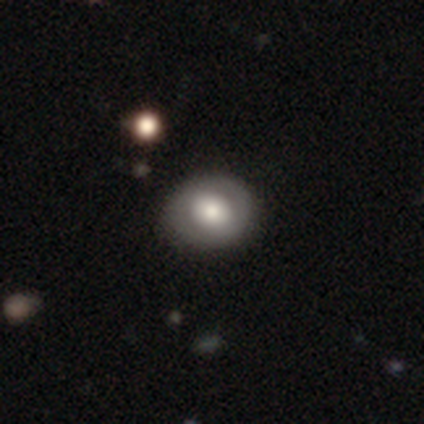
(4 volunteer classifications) smooth-or-featured: smooth: 50% (tied) | featured or disk: 50% (tied) | star or artifact: 0%
  how-rounded: round: 50% (tied) | in between: 50% (tied) | cigar-shaped: 0%
  merging: none: 100% | minor disturbance: 0% | major disturbance: 0% | merger: 0%